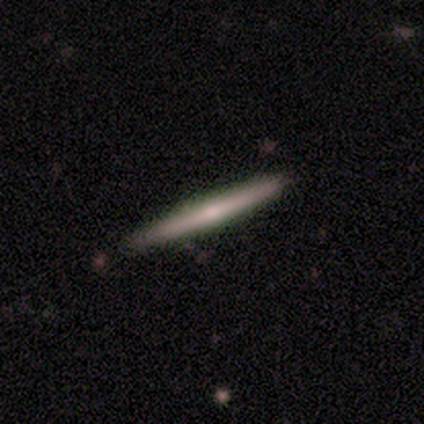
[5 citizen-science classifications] Morphology: type=smooth (80%); roundness=cigar-shaped (100%); merging=none (60%).